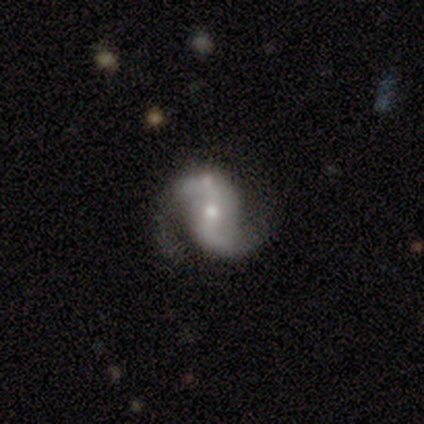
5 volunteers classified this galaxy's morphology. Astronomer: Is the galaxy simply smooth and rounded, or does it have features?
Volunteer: featured or disk — 100%.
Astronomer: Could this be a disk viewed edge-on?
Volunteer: no — 80%.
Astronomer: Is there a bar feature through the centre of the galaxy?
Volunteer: weak — 75%.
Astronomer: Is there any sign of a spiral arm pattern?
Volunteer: yes — 100%.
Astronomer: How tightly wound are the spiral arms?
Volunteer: loose — 75%.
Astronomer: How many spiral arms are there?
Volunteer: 2 — 100%.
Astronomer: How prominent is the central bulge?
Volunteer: small — 75%.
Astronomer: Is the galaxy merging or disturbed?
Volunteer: none — 60%.